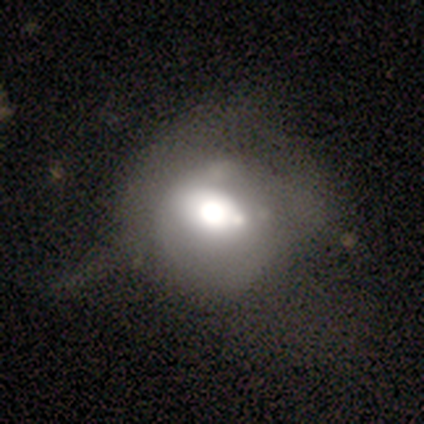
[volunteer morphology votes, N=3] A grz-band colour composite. It shows a featured or disk galaxy (100%) with no bar (67%), no spiral arms (100%) and a dominant central bulge (67%). Merging: major disturbance (67%).